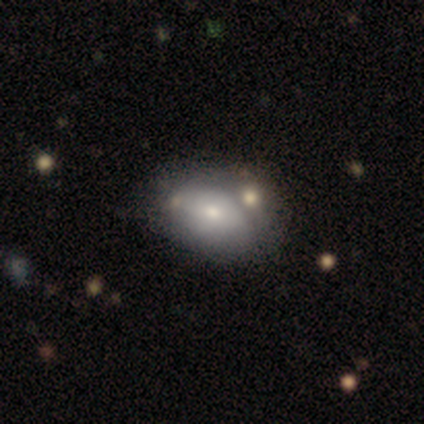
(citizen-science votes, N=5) A smooth galaxy with no disk features (100%) that is in between round and cigar-shaped (80%).

Vote fractions:
- Smooth or featured? smooth: 100% / featured or disk: 0% / star or artifact: 0%
- How rounded? in between: 80% / round: 20% / cigar-shaped: 0%
- Merging? none: 100% / minor disturbance: 0% / major disturbance: 0% / merger: 0%